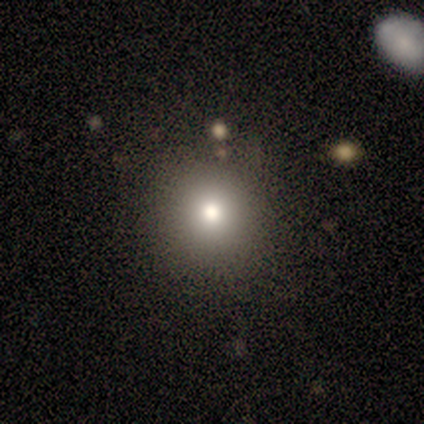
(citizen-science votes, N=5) Smooth or featured: smooth — 60% (featured or disk — 40%)
How rounded: round — 100%
Merging: none — 100%